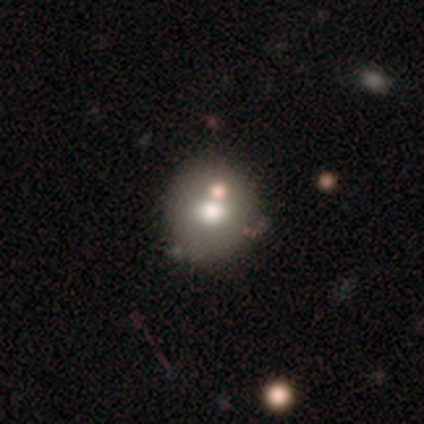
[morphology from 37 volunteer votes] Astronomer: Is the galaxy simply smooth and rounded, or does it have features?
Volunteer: smooth — 65%.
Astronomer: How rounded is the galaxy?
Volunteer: round — 96%.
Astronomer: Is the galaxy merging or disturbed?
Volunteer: none — 77%.